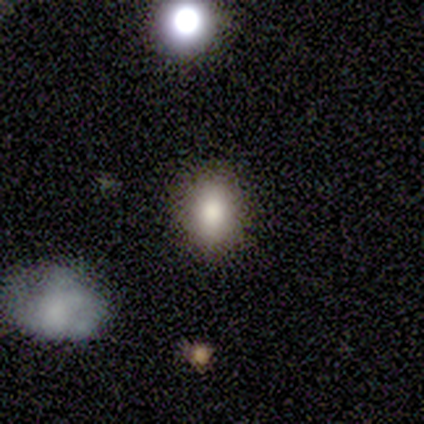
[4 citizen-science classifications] smooth-or-featured: smooth: 100% | featured or disk: 0% | star or artifact: 0%
  how-rounded: in between: 100% | round: 0% | cigar-shaped: 0%
  merging: none: 50% (tied) | minor disturbance: 50% (tied) | major disturbance: 0% | merger: 0%